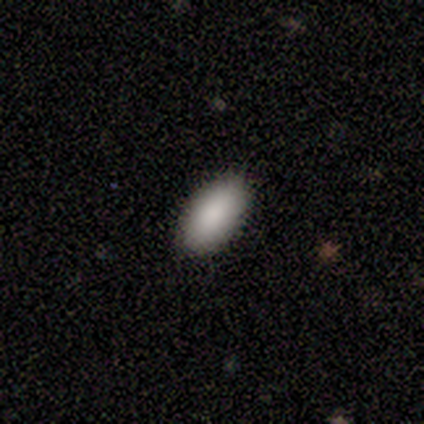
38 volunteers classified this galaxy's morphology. A smooth galaxy with no disk features (89%) that is in between round and cigar-shaped (91%).

Vote fractions:
- Smooth or featured? smooth: 89% / featured or disk: 8% / star or artifact: 3%
- How rounded? in between: 91% / cigar-shaped: 9% / round: 0%
- Merging? none: 92% / minor disturbance: 5% / major disturbance: 3% / merger: 0%